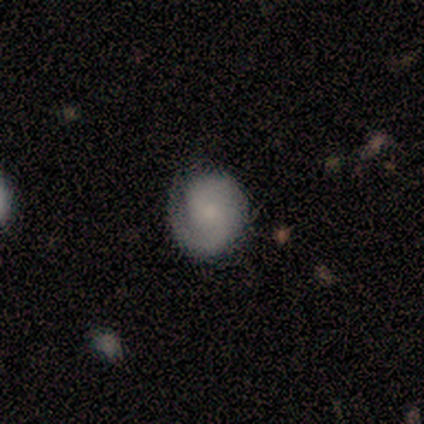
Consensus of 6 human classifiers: smooth_or_featured: smooth (p=0.50) [tied with: featured or disk p=0.50]
how_rounded: round (p=1.00)
merging: none (p=0.67) [alt: minor disturbance p=0.33]